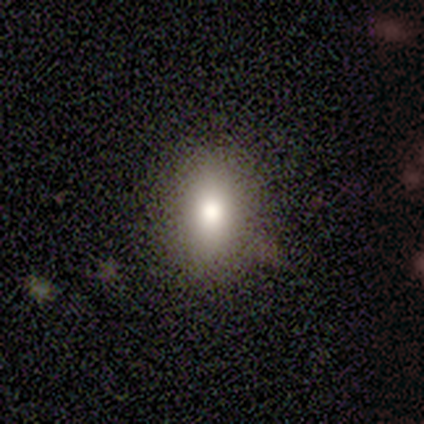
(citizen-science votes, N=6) This is clearly a smooth galaxy (83%). How rounded: marginally round (40%, tied with in between). Merging: clearly none (83%).